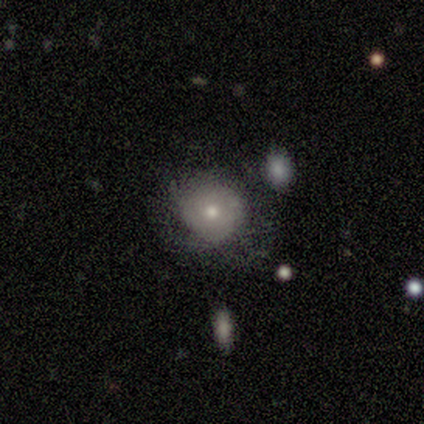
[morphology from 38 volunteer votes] smooth-or-featured: smooth: 55% | featured or disk: 32% | star or artifact: 13%
  how-rounded: round: 95% | in between: 5% | cigar-shaped: 0%
  merging: none: 85% | minor disturbance: 15% | major disturbance: 0% | merger: 0%